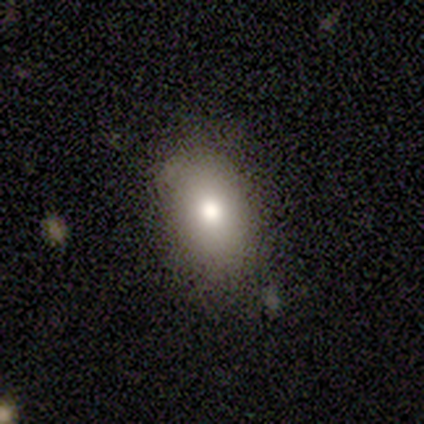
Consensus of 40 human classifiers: Smooth or featured: smooth — 72% (featured or disk — 15%)
How rounded: in between — 79% (round — 17%)
Merging: none — 86% (minor disturbance — 14%)